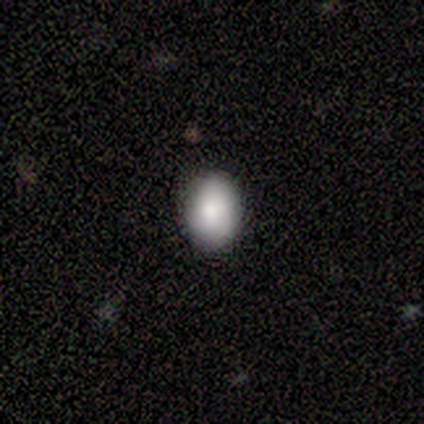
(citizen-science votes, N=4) Volunteers were most divided on "how rounded": in between: 75%, round: 25%, cigar-shaped: 0%. More confident: smooth or featured — smooth (100%); merging — none (100%).